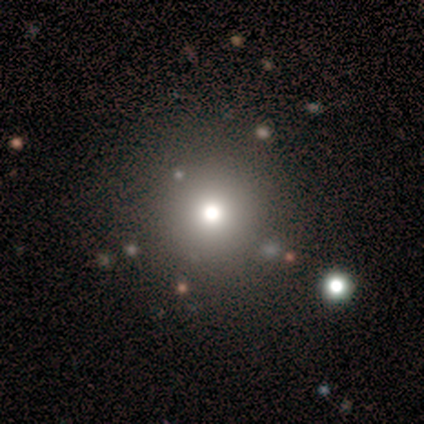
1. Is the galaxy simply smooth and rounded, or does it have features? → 80% smooth, 20% star or artifact, 0% featured or disk.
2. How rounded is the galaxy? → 100% round, 0% in between, 0% cigar-shaped.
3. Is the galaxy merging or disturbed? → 100% none, 0% minor disturbance, 0% major disturbance, 0% merger.